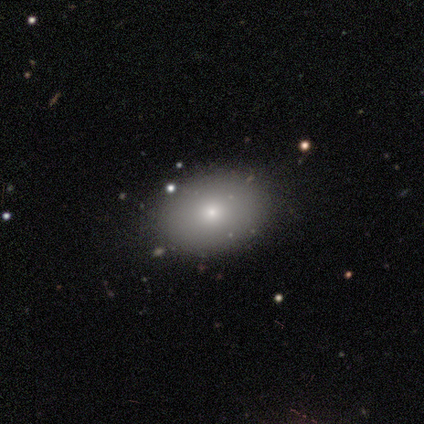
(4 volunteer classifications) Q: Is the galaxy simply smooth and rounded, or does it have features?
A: smooth — 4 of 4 (100%).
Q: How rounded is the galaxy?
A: in between — 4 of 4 (100%).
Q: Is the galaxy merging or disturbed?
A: none — 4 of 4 (100%).